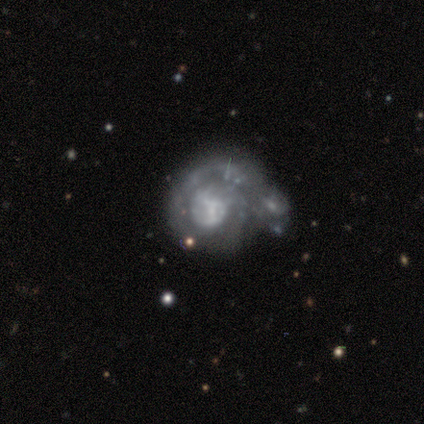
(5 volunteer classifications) Volunteers were most divided on "bulge size" (3-way tie): large: 33%, moderate: 33%, none: 33%, dominant: 0%, small: 0%. Remaining: edge-on disk — no (100%); bar — no (100%); spiral arms — yes (100%); spiral winding — medium (67%); spiral arm count — 1 (67%); smooth or featured — featured or disk (60%); merging — minor disturbance (40%).